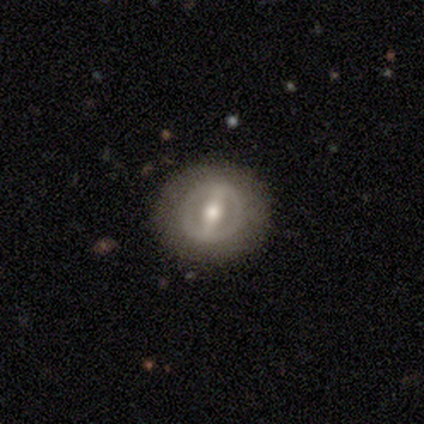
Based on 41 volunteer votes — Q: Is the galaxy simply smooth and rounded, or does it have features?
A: featured or disk — 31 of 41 (76%).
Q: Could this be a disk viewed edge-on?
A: no — 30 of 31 (97%).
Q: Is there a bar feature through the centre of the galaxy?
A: strong — 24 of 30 (80%).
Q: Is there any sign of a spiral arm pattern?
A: no — 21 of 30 (70%).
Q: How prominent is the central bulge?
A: moderate — 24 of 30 (80%).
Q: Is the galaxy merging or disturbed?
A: none — 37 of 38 (97%).